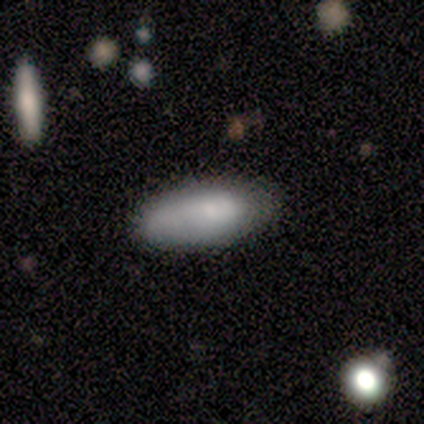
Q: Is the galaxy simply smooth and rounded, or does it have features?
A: smooth — 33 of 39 (85%).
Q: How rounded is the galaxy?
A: in between — 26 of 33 (79%).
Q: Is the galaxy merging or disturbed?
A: none — 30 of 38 (79%).